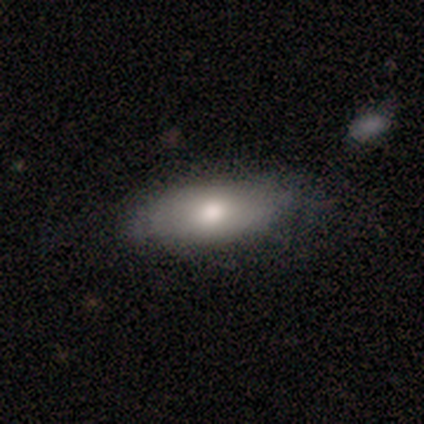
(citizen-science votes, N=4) Smooth or featured?
  - featured or disk: 100% *
  - smooth: 0%
  - star or artifact: 0%
Edge-on disk?
  - yes: 50% * (tied)
  - no: 50% * (tied)
Edge-on bulge?
  - rounded: 100% *
  - boxy: 0%
  - none: 0%
Merging?
  - none: 75% *
  - merger: 25%
  - minor disturbance: 0%
  - major disturbance: 0%